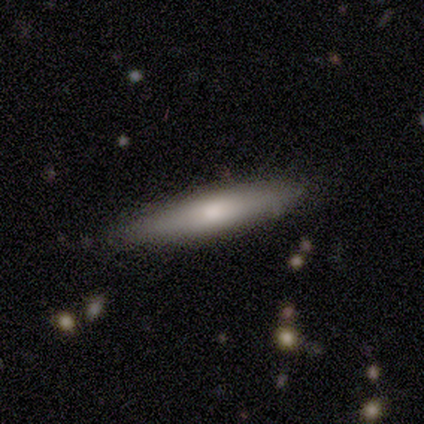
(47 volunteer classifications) Q: Smooth or featured?
A: smooth (64%); runner-up: featured or disk (32%)
Q: How rounded?
A: cigar-shaped (83%); runner-up: in between (13%)
Q: Merging?
A: none (80%); runner-up: minor disturbance (18%)